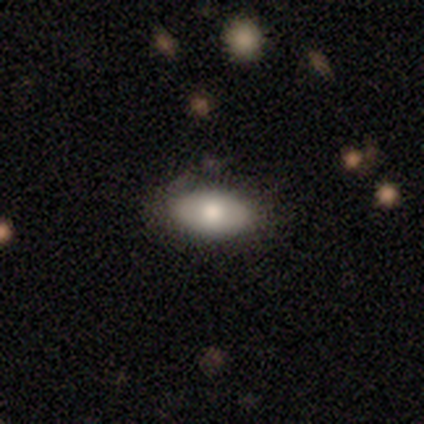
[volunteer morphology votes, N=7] smooth_or_featured: smooth (p=0.57) [alt: featured or disk p=0.43]
how_rounded: in between (p=1.00)
merging: none (p=0.57) [alt: minor disturbance p=0.43]